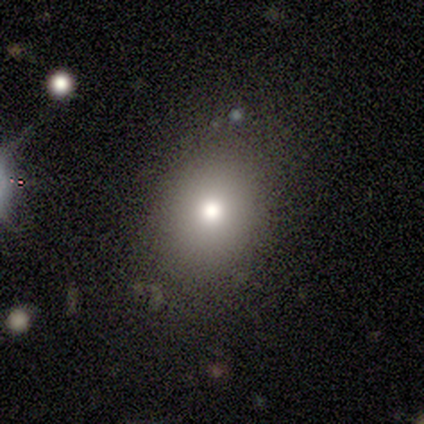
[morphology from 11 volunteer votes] Q: Smooth or featured?
A: smooth (73%); runner-up: star or artifact (18%)
Q: How rounded?
A: round (50%); tied with: in between (50%)
Q: Merging?
A: none (89%); runner-up: minor disturbance (11%)